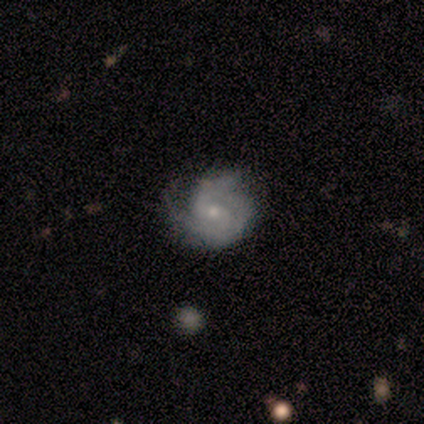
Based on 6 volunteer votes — smooth-or-featured: smooth: 50% (tied) | featured or disk: 50% (tied) | star or artifact: 0%
  how-rounded: round: 100% | in between: 0% | cigar-shaped: 0%
  merging: none: 50% (tied) | minor disturbance: 50% (tied) | major disturbance: 0% | merger: 0%